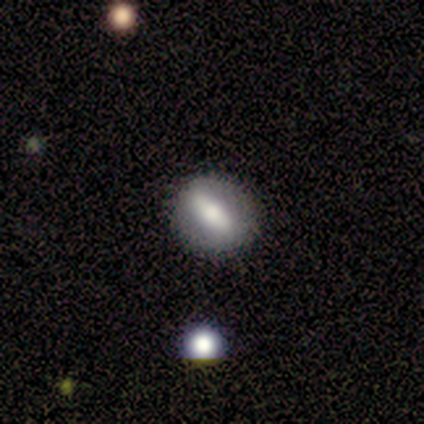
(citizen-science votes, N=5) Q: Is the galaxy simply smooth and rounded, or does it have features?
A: smooth — 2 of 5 (40%, tied with featured or disk).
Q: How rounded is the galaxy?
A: round — 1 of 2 (50%, tied with in between).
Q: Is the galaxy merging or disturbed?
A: none — 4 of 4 (100%).